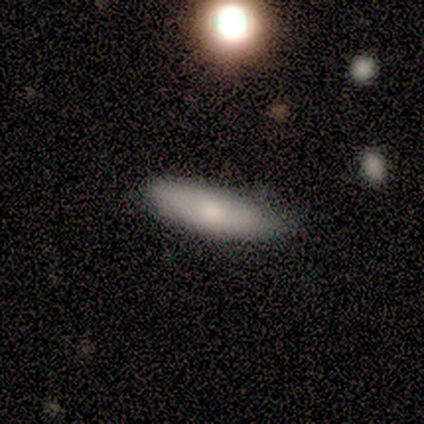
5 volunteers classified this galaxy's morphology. Smooth or featured? 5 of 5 (100%) said smooth. How rounded? 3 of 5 (60%) said cigar-shaped. Merging? 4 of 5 (80%) said none.